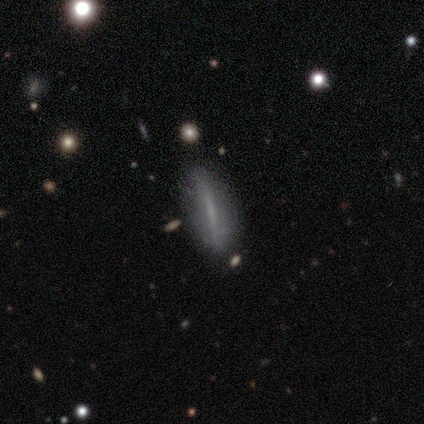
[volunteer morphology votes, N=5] A featured or disk galaxy (60%) viewed edge-on (67%) with no central bulge (50%, tied with rounded). Merging: none (60%).